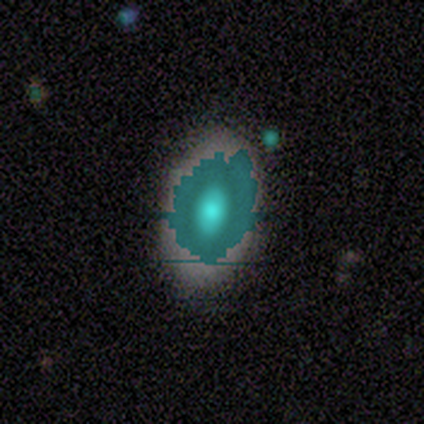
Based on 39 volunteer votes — smooth-or-featured: smooth: 36% | star or artifact: 33% | featured or disk: 31%
  how-rounded: in between: 86% | round: 14% | cigar-shaped: 0%
  merging: none: 46% | minor disturbance: 12% | major disturbance: 4% | merger: 4%